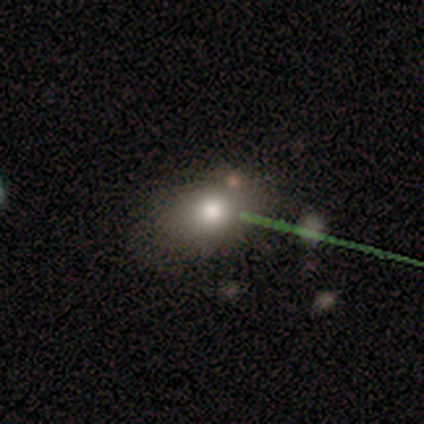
Smooth or featured?
  - star or artifact: 67% *
  - smooth: 33%
  - featured or disk: 0%